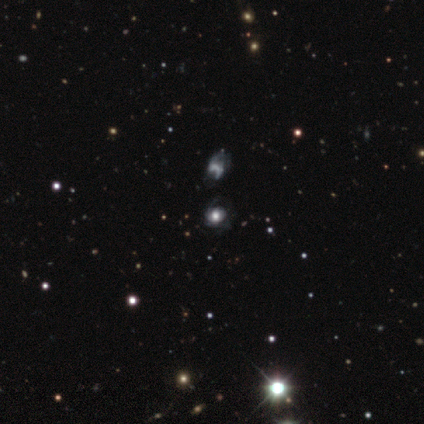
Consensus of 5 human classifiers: Q: Smooth or featured?
A: featured or disk (40%); tied with: star or artifact (40%)
Q: Edge-on disk?
A: no (100%)
Q: Bar?
A: no (100%)
Q: Spiral arms?
A: yes (100%)
Q: Spiral winding?
A: tight (50%); tied with: medium (50%)
Q: Spiral arm count?
A: can't tell (100%)
Q: Bulge size?
A: dominant (100%)
Q: Merging?
A: none (67%); runner-up: minor disturbance (33%)